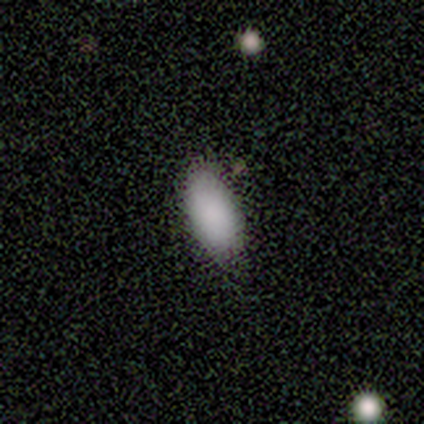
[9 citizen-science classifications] smooth_or_featured: smooth (p=1.00)
how_rounded: in between (p=1.00)
merging: none (p=0.67) [alt: minor disturbance p=0.22]